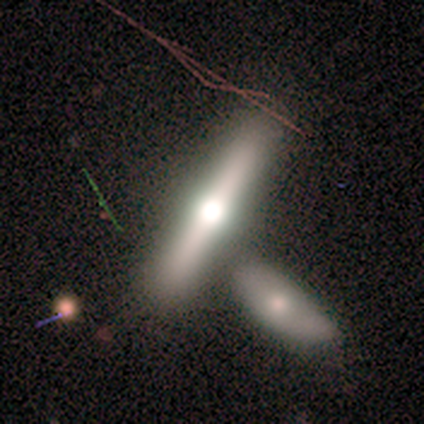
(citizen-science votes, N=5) smooth-or-featured: featured or disk: 60% | smooth: 40% | star or artifact: 0%
  disk-edge-on: yes: 100% | no: 0%
    edge-on-bulge: rounded: 100% | boxy: 0% | none: 0%
  merging: none: 100% | minor disturbance: 0% | major disturbance: 0% | merger: 0%